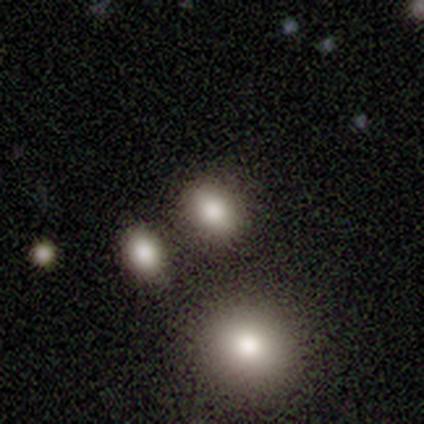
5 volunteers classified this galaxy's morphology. Q: Smooth or featured?
A: smooth (60%); runner-up: featured or disk (40%)
Q: How rounded?
A: in between (67%); runner-up: round (33%)
Q: Merging?
A: none (80%); runner-up: merger (20%)